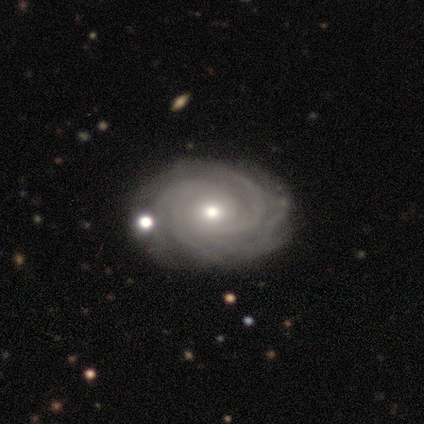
This appears to be a featured or disk galaxy (100%) with no bar (86%), tight (100%) spiral arms (100%) and a small central bulge (71%). Merging: none (86%).